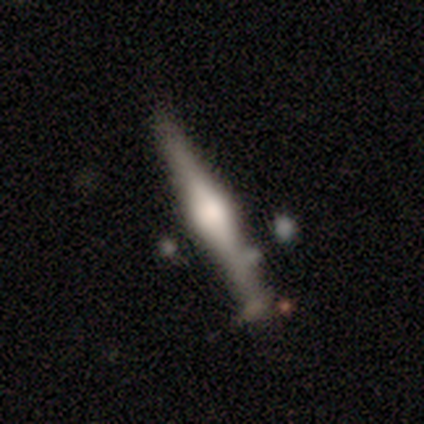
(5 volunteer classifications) Smooth or featured? featured or disk (80%)
Edge-on disk? yes (100%)
Edge-on bulge? rounded (100%)
Merging? none (60%)